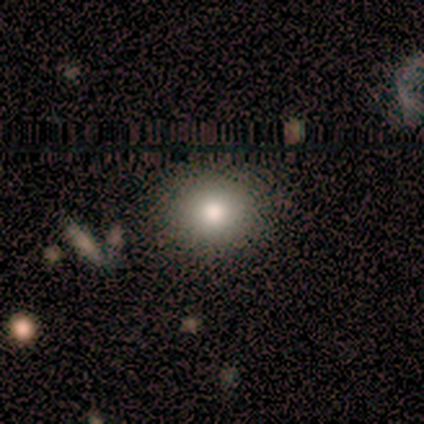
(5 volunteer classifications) smooth 100%, featured or disk 0%, star or artifact 0%. Down the decision tree: how rounded — round (80%); merging — none (100%).